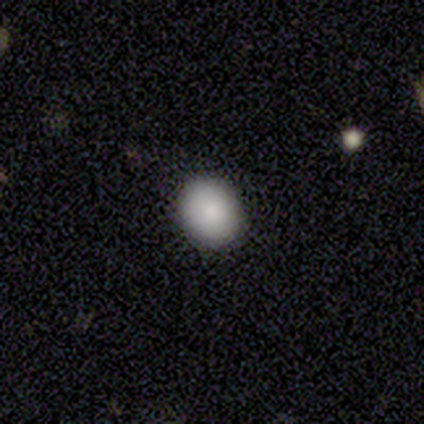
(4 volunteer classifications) This is likely a smooth galaxy (75%). How rounded: clearly round (100%). Merging: clearly none (100%).